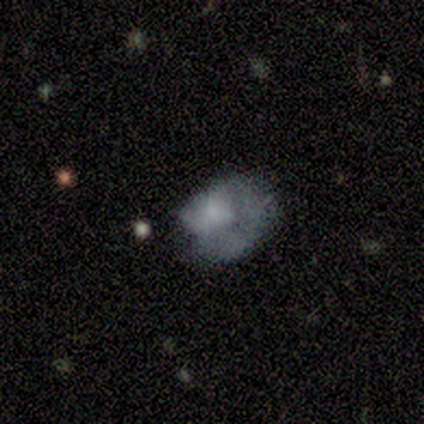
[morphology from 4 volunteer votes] smooth-or-featured: featured or disk: 50% (tied) | star or artifact: 50% (tied) | smooth: 0%
  disk-edge-on: no: 100% | yes: 0%
    bar: no: 100% | strong: 0% | weak: 0%
    has-spiral-arms: yes: 50% (tied) | no: 50% (tied)
      spiral-winding: tight: 100% | medium: 0% | loose: 0%
      spiral-arm-count: 1: 100% | 2: 0% | 3: 0% | 4: 0% | more than 4: 0% | can't tell: 0%
    bulge-size: moderate: 50% (tied) | none: 50% (tied) | dominant: 0% | large: 0% | small: 0%
  merging: none: 100% | minor disturbance: 0% | major disturbance: 0% | merger: 0%